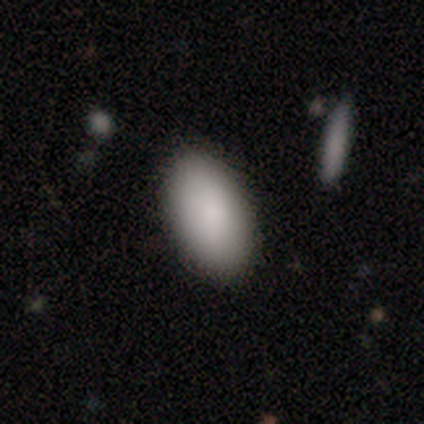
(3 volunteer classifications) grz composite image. It shows a smooth galaxy with no disk features (67%) that is in between round and cigar-shaped (100%). Merging: none (100%).